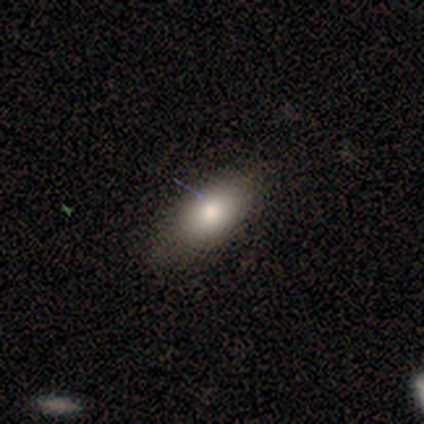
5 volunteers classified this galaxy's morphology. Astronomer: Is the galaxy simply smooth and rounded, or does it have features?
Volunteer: smooth — 80%.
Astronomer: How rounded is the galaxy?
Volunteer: in between — 100%.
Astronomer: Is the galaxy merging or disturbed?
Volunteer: none — 100%.